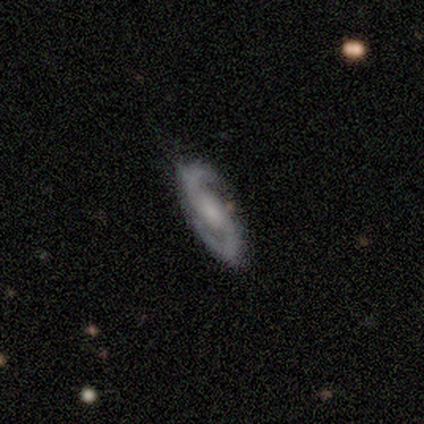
Morphology: type=featured or disk (100%); edge-on=no (100%); bar=no (100%); spiral arms=yes (100%); winding=medium (60%); arm count=2 (100%); bulge=small (80%); merging=none (100%).